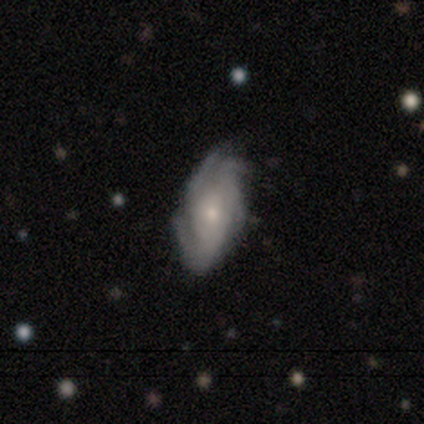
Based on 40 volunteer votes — A featured or disk galaxy (75%) with no bar (82%), 3 (32%, tied with 4) tight (52%) spiral arms (89%) and a small central bulge (54%). Merging: none (62%).